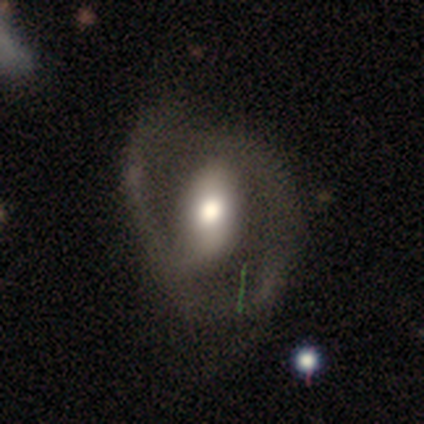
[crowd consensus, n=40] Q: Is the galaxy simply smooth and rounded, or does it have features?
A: featured or disk — 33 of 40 (82%).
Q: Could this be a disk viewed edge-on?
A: no — 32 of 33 (97%).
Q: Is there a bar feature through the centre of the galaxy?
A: strong — 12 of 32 (38%).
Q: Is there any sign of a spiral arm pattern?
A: yes — 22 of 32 (69%).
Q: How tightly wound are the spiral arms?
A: medium — 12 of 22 (55%).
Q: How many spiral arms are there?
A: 2 — 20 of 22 (91%).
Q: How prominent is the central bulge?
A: moderate — 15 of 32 (47%).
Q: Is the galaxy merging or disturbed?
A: minor disturbance — 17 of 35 (49%).